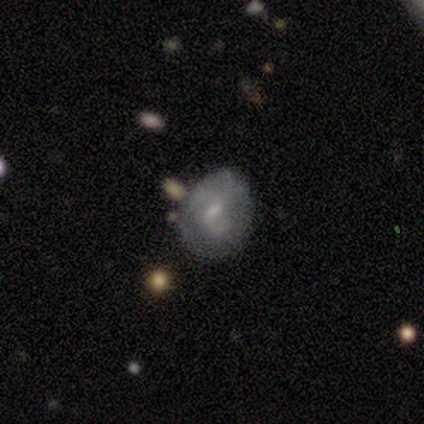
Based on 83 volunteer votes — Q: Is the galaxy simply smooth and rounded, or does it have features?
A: featured or disk — 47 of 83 (57%).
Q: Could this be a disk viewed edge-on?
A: no — 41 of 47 (87%).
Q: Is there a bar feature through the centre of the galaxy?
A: weak — 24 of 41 (59%).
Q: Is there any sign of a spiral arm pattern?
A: no — 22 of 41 (54%).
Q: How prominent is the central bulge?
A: small — 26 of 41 (63%).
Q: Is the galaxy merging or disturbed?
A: none — 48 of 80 (60%).